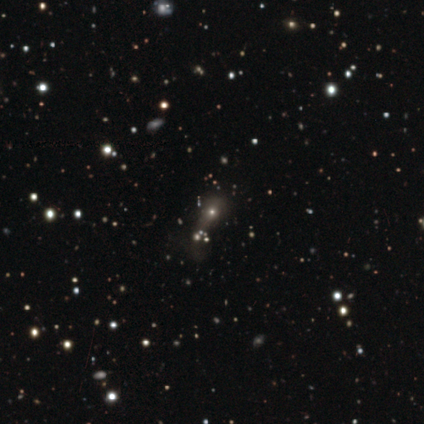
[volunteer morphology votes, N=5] This is likely a star or artifact rather than a galaxy (60%).